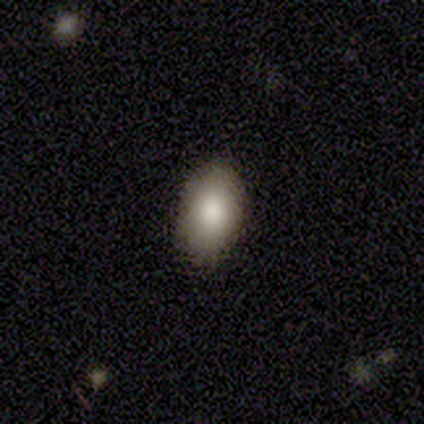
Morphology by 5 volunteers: Overall: smooth (80%). How rounded: in between (75%). Merging: none (100%).